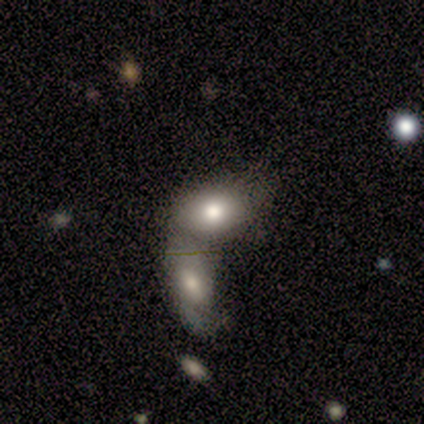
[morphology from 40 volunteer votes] Smooth or featured?
  - smooth: 65% *
  - featured or disk: 28%
  - star or artifact: 8%
How rounded?
  - in between: 88% *
  - round: 12%
  - cigar-shaped: 0%
Merging?
  - merger: 81% *
  - none: 14%
  - minor disturbance: 3%
  - major disturbance: 3%